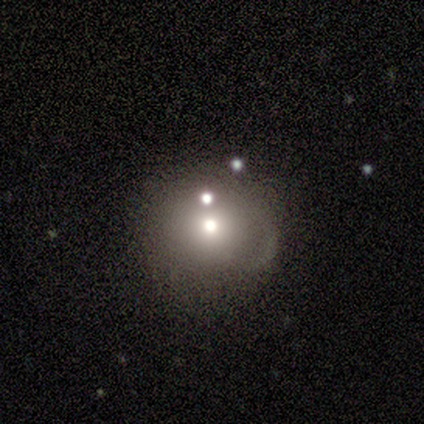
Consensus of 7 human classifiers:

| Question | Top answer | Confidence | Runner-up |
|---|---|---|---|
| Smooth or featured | featured or disk | 43% | smooth (29%) |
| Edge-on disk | no | 67% | yes (33%) |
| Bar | no | 100% | — |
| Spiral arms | no | 100% | — |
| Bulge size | moderate | 50% | tied: small (50%) |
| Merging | none | 60% | major disturbance (20%) |